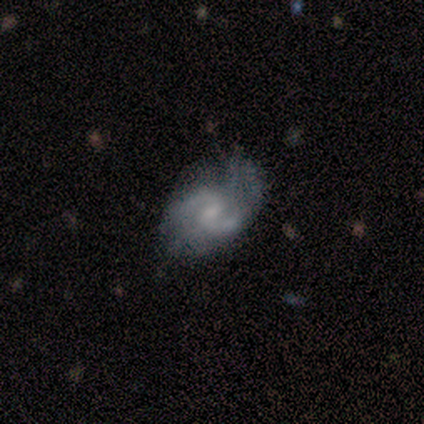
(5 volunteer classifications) Overall: featured or disk (100%). Edge-on disk: no (100%). Bar: weak (60%; no 40%). Spiral arms: yes (80%). Spiral arm count: 2 (100%). Spiral winding: medium (75%). Bulge size: small (60%; none 40%). Merging: none (80%).